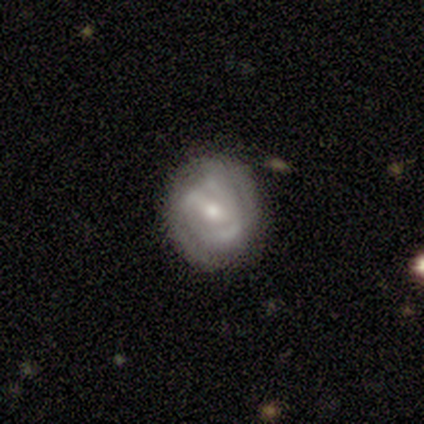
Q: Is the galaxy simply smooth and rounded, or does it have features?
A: smooth — 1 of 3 (33%, tied with featured or disk and star or artifact).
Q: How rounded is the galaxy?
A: in between — 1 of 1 (100%).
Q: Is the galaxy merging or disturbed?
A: none — 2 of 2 (100%).